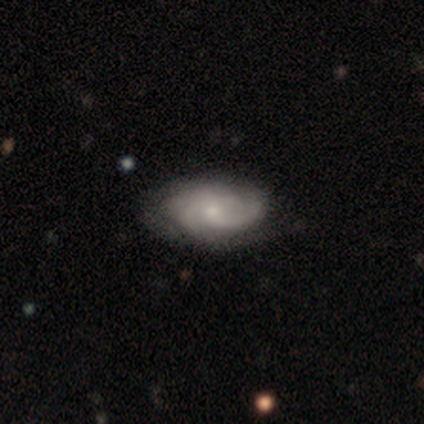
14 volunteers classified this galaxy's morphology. smooth-or-featured: featured or disk: 86% | smooth: 14% | star or artifact: 0%
  disk-edge-on: no: 92% | yes: 8%
    bar: no: 82% | weak: 18% | strong: 0%
    has-spiral-arms: yes: 82% | no: 18%
      spiral-winding: medium: 56% | tight: 33% | loose: 11%
      spiral-arm-count: 2: 56% | can't tell: 33% | 4: 11% | 1: 0% | 3: 0% | more than 4: 0%
    bulge-size: small: 82% | moderate: 18% | dominant: 0% | large: 0% | none: 0%
  merging: none: 86% | minor disturbance: 14% | major disturbance: 0% | merger: 0%